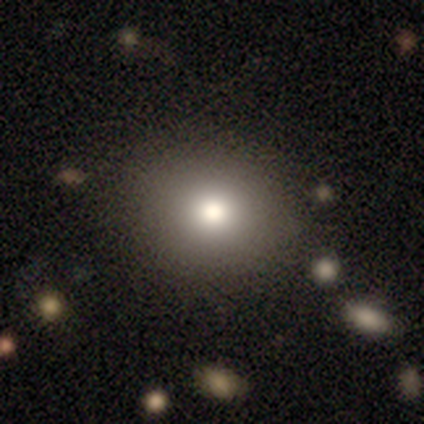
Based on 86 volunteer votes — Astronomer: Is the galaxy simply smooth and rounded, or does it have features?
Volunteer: smooth — 73%.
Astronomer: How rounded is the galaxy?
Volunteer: round — 81%.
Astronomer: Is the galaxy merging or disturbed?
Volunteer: none — 88%.